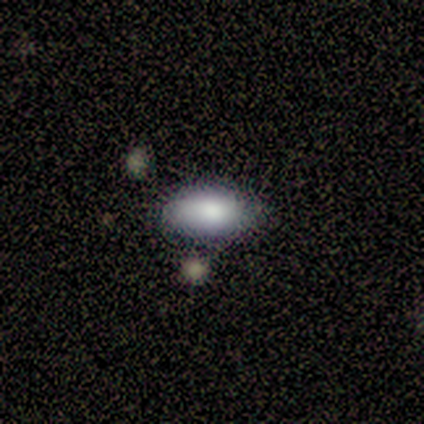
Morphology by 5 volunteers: smooth 100%, featured or disk 0%, star or artifact 0%. Down the decision tree: how rounded — in between (100%); merging — minor disturbance (60%).